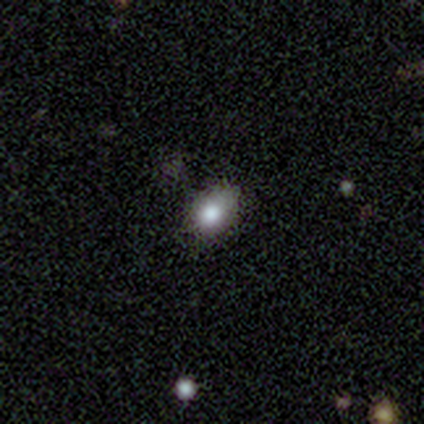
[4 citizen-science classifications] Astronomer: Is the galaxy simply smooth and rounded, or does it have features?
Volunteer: smooth — 100%.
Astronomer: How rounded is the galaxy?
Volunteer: round — 75%.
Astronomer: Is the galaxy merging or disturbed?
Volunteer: none — 50%.